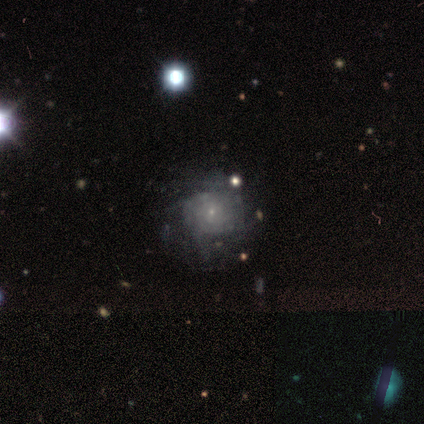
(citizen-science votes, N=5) Volunteers were most divided on "spiral winding": tight: 67%, loose: 33%, medium: 0%. More confident: edge-on disk — no (100%); bulge size — small (100%); smooth or featured — featured or disk (80%); merging — none (80%); bar — no (75%); spiral arms — yes (75%); spiral arm count — can't tell (67%).